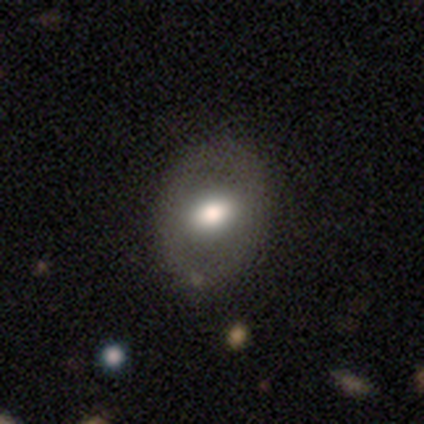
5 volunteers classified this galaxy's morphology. smooth 60%, featured or disk 20%, star or artifact 20%. Down the decision tree: how rounded — in between (67%); merging — none (75%).